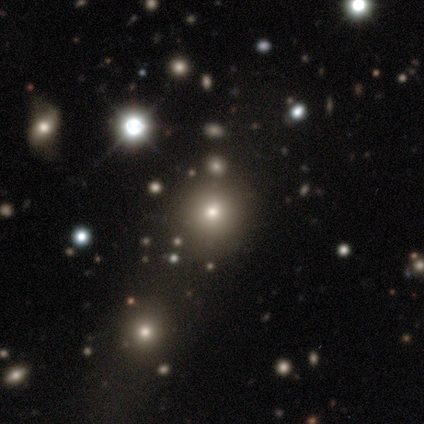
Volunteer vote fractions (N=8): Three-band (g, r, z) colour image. It shows a star or artifact, not a galaxy (62%).